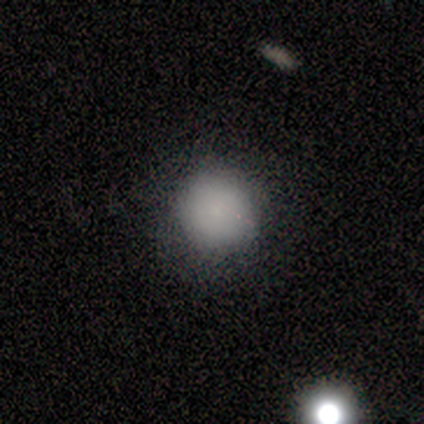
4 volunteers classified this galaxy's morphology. This appears to be a smooth galaxy with no disk features (50%, tied with featured or disk) that is round (100%). Merging: none (75%).